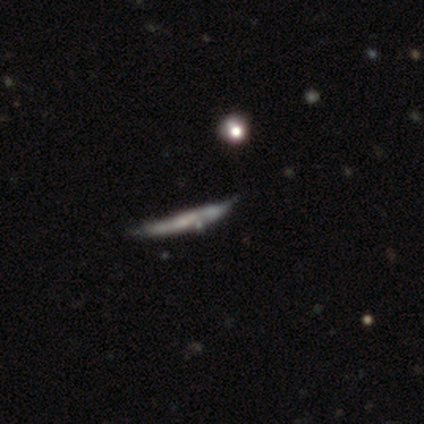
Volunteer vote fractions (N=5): Morphology: type=featured or disk (60%); edge-on=yes (100%); edge-on bulge=none (67%); merging=none (100%).